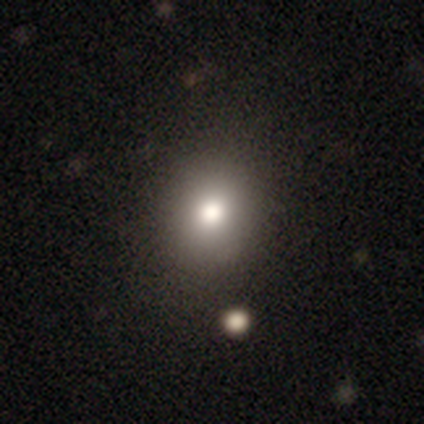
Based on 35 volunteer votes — Smooth or featured? 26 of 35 (74%) said smooth. How rounded? 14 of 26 (54%) said round. Merging? 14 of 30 (47%) said none.